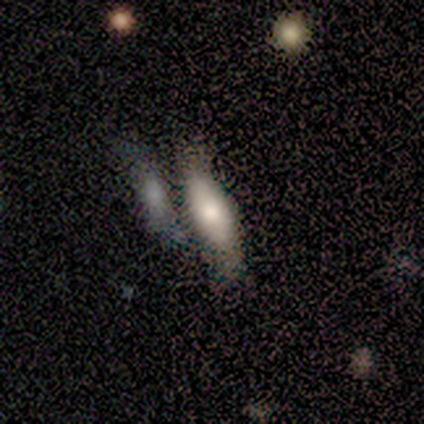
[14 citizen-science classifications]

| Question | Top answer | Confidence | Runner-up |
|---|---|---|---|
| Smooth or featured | smooth | 79% | featured or disk (21%) |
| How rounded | in between | 64% | cigar-shaped (36%) |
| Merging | none | 57% | merger (21%) |